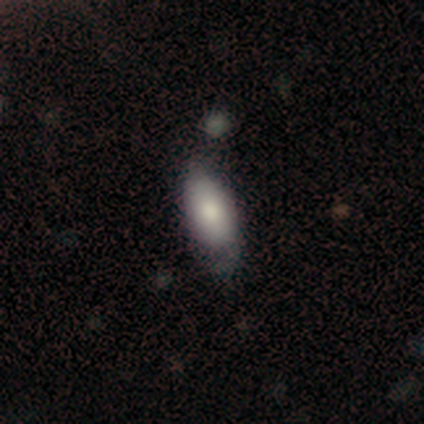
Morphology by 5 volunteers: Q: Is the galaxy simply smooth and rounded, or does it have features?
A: smooth — 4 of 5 (80%).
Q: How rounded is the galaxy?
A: in between — 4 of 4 (100%).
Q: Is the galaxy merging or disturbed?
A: none — 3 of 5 (60%).